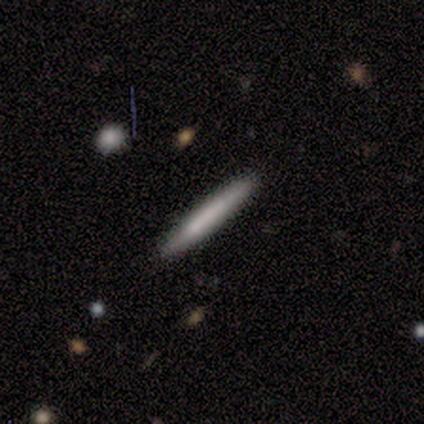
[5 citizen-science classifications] Smooth or featured?
  - smooth: 60% *
  - featured or disk: 40%
  - star or artifact: 0%
How rounded?
  - cigar-shaped: 100% *
  - round: 0%
  - in between: 0%
Merging?
  - none: 100% *
  - minor disturbance: 0%
  - major disturbance: 0%
  - merger: 0%